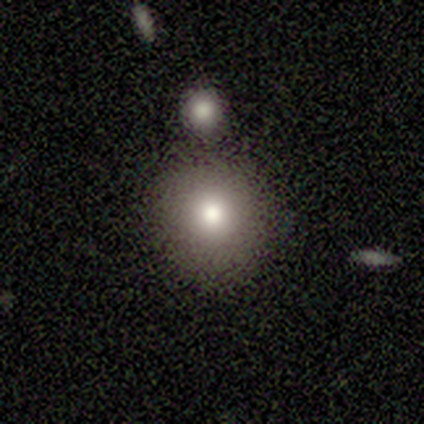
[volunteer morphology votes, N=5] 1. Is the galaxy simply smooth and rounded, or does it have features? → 60% smooth, 20% featured or disk, 20% star or artifact.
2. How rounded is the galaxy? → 100% round, 0% in between, 0% cigar-shaped.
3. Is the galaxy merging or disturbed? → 50% merger, 25% none, 25% minor disturbance, 0% major disturbance.